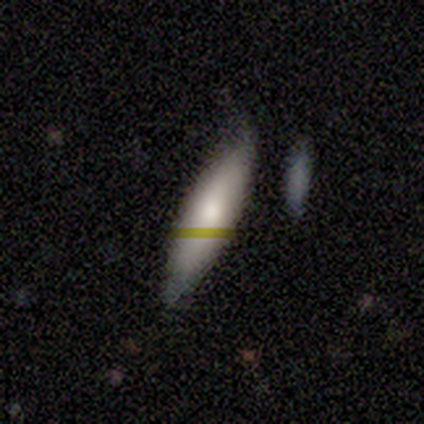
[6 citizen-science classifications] featured or disk 50%, smooth 33%, star or artifact 17%. Down the decision tree: edge-on disk — no (67%); bar — no (100%); spiral arms — yes (50%, tied with no); spiral arm count — 2 (100%); spiral winding — loose (100%); bulge size — small (100%); merging — none (60%).